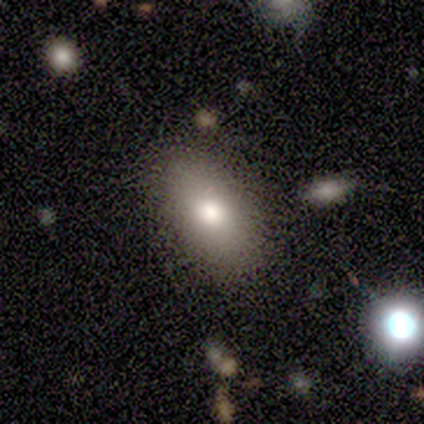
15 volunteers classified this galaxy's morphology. smooth-or-featured: smooth: 67% | featured or disk: 20% | star or artifact: 13%
  how-rounded: in between: 90% | round: 10% | cigar-shaped: 0%
  merging: none: 92% | major disturbance: 8% | minor disturbance: 0% | merger: 0%